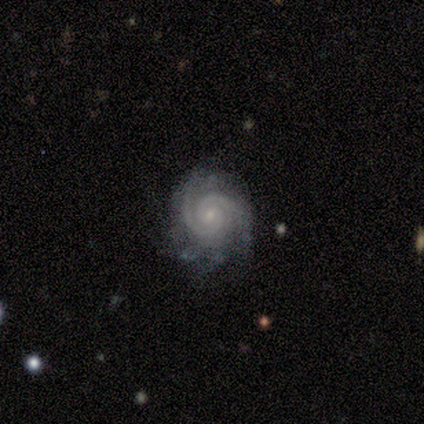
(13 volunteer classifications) Morphology: type=featured or disk (100%); edge-on=no (100%); bar=no (62%); spiral arms=yes (100%); winding=tight (62%); arm count=2 (62%); bulge=small (100%); merging=none (77%).